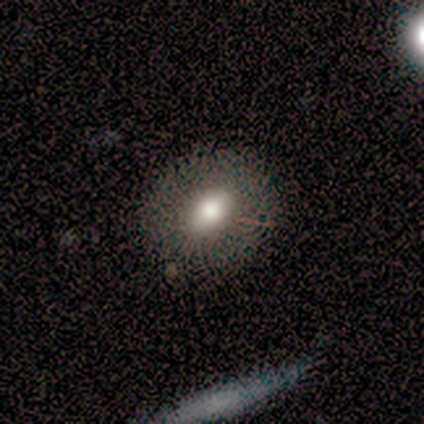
Smooth or featured? 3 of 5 (60%) said smooth. How rounded? 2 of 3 (67%) said in between. Merging? 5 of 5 (100%) said none.